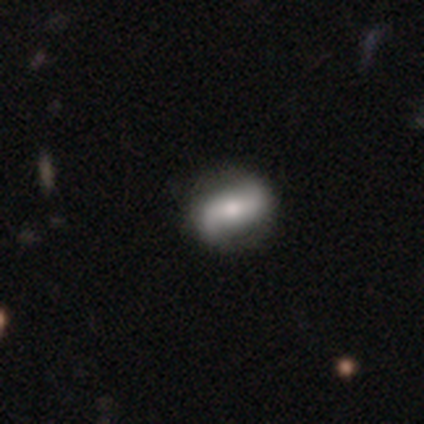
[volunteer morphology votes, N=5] Smooth or featured: featured or disk — 80% (smooth — 20%)
Edge-on disk: no — 100%
Bar: strong — 50% (weak — 25%)
Spiral arms: yes — 100%
Spiral winding: loose — 75% (tight — 25%)
Spiral arm count: 2 — 100%
Bulge size: small — 50% (large — 25%)
Merging: none — 100%